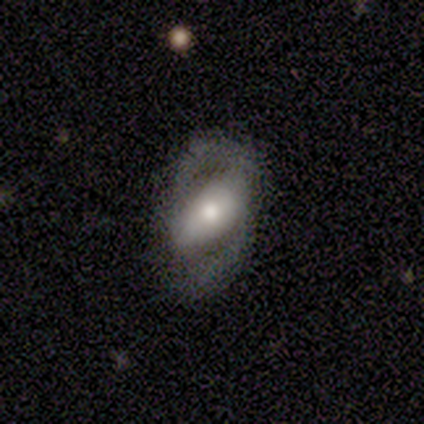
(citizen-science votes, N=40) This appears to be a featured or disk galaxy (60%) with a strong bar (50%), 2 (92%) tight (50%) spiral arms (55%) and a moderate central bulge (55%). Merging: none (55%).